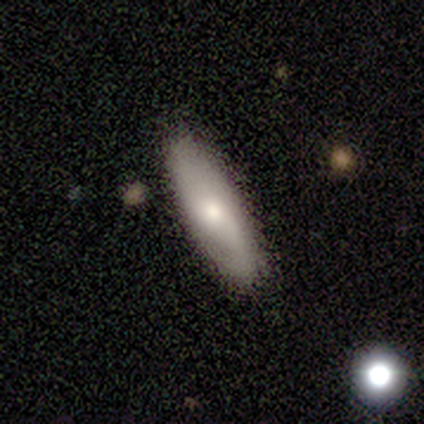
Smooth or featured: smooth — 55% (featured or disk — 35%)
How rounded: in between — 60% (cigar-shaped — 38%)
Merging: none — 88% (minor disturbance — 7%)